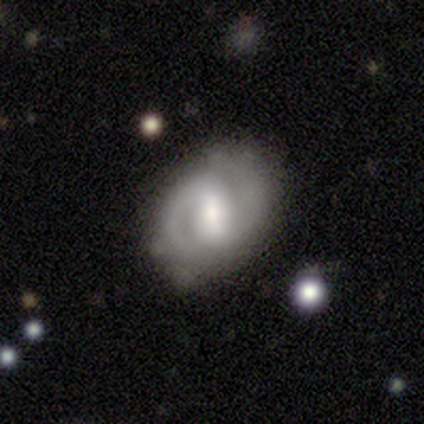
Smooth or featured? 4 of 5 (80%) said featured or disk. Edge-on disk? 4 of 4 (100%) said no. Bar? 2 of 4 (50%) said weak. Spiral arms? 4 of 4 (100%) said yes. Spiral winding? 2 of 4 (50%, tied with loose) said medium. Spiral arm count? 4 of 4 (100%) said 2. Bulge size? 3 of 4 (75%) said large. Merging? 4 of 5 (80%) said none.